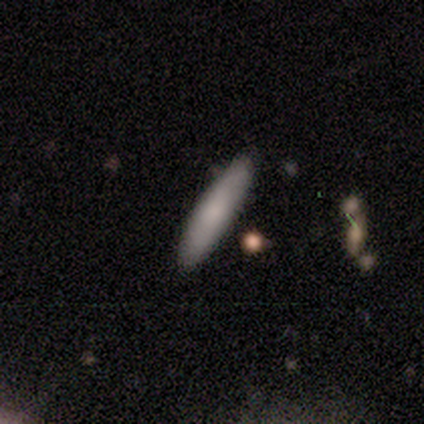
Smooth or featured? smooth (80%)
How rounded? cigar-shaped (100%)
Merging? none (100%)